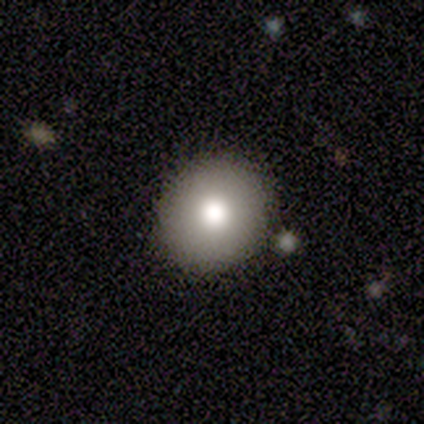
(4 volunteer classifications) smooth-or-featured: smooth: 100% | featured or disk: 0% | star or artifact: 0%
  how-rounded: round: 75% | in between: 25% | cigar-shaped: 0%
  merging: none: 100% | minor disturbance: 0% | major disturbance: 0% | merger: 0%